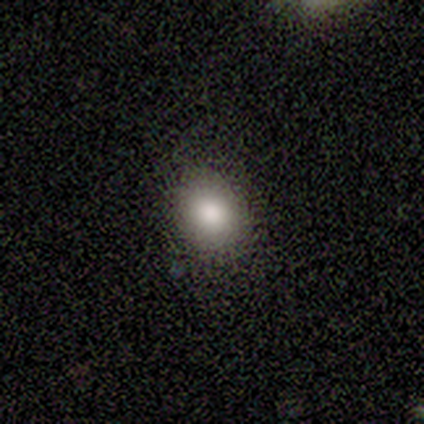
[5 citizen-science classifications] Smooth or featured? 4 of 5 (80%) said smooth. How rounded? 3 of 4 (75%) said round. Merging? 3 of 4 (75%) said none.